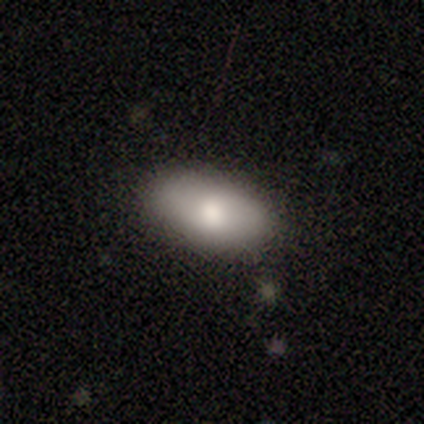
smooth 85%, featured or disk 8%, star or artifact 8%. Down the decision tree: how rounded — in between (100%); merging — none (81%).